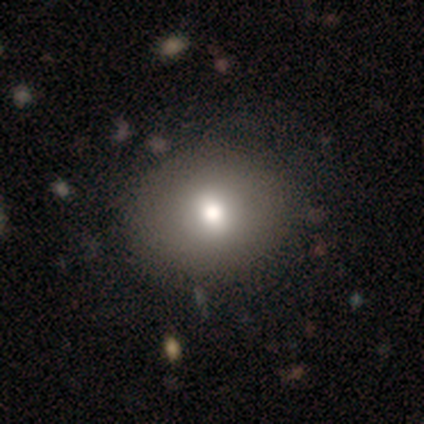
Morphology: type=featured or disk (60%); edge-on=no (67%); bar=weak (50%, tied with no); spiral arms=no (100%); bulge=large (50%, tied with moderate); merging=none (100%).